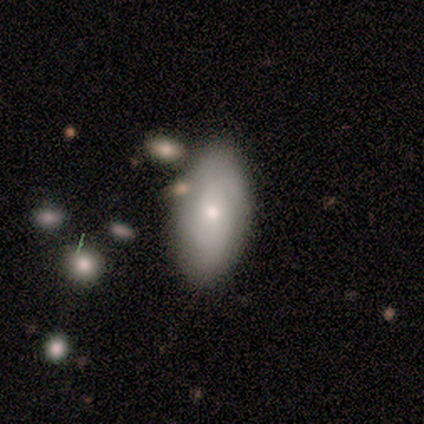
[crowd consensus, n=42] A smooth galaxy with no disk features (57%) that is in between round and cigar-shaped (88%). Merging: none (75%).